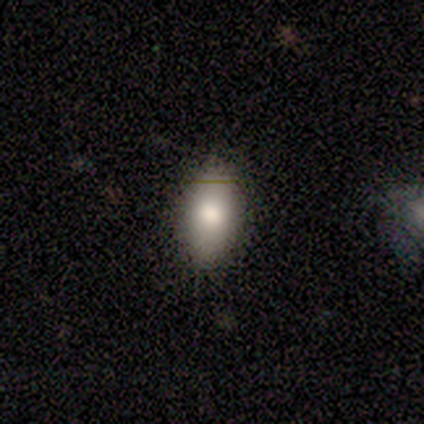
smooth-or-featured: smooth: 60% | featured or disk: 40% | star or artifact: 0%
  how-rounded: in between: 100% | round: 0% | cigar-shaped: 0%
  merging: none: 80% | minor disturbance: 20% | major disturbance: 0% | merger: 0%